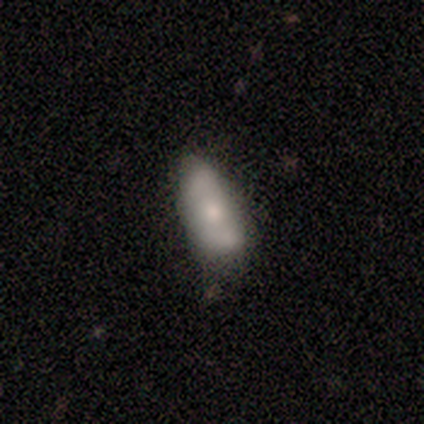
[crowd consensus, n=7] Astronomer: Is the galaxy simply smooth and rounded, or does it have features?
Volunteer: smooth — 71%.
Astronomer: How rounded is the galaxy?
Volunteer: in between — 80%.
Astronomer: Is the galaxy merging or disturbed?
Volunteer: none — 50%, tied with minor disturbance at 50%.